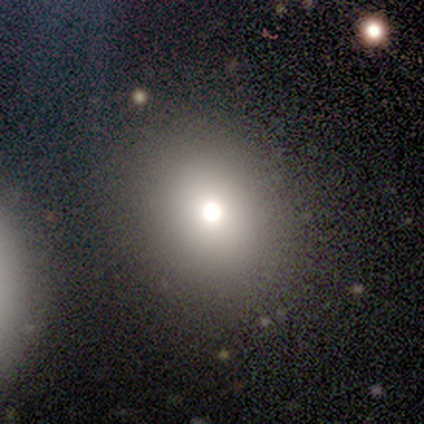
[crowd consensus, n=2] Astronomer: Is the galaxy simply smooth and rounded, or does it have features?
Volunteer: star or artifact — 100%.